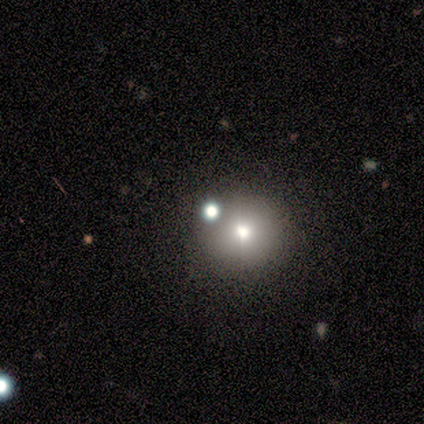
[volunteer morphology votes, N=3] Overall: star or artifact (67%; smooth 33%).